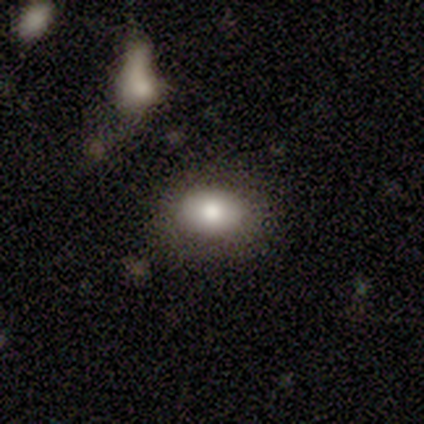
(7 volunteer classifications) Smooth or featured? smooth (71%)
How rounded? in between (60%)
Merging? none (80%)